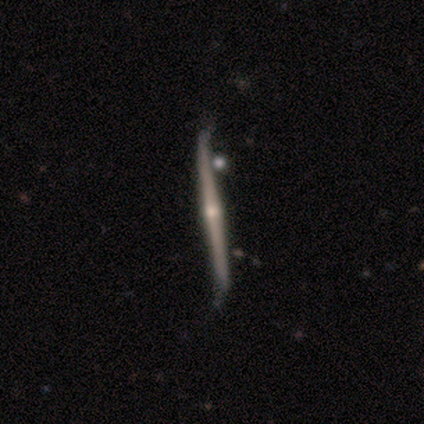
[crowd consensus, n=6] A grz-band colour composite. It shows a featured or disk galaxy (83%) viewed edge-on (100%) with a rounded central bulge (100%). Merging: none (50%).